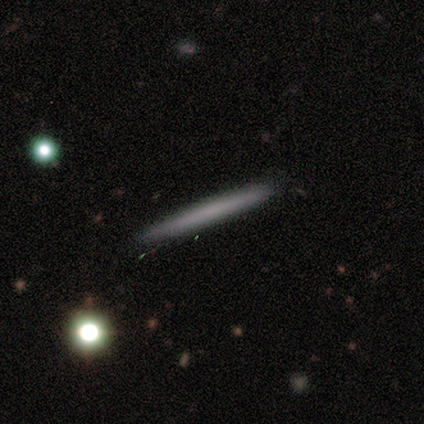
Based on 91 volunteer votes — Morphology: type=smooth (63%); roundness=cigar-shaped (96%); merging=none (90%).